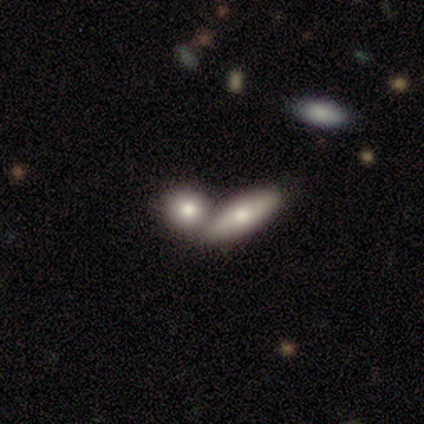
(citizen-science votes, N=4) Smooth or featured? smooth (50%, tied with featured or disk)
How rounded? cigar-shaped (100%)
Merging? merger (75%)